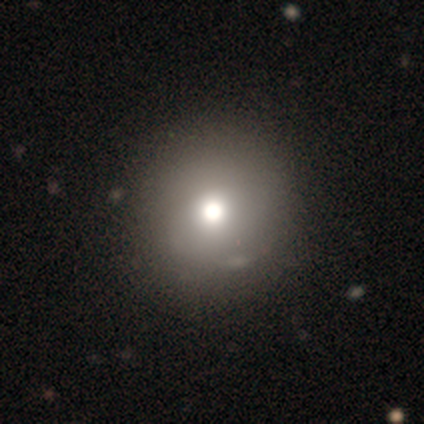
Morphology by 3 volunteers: Smooth or featured? smooth (33%, tied with featured or disk and star or artifact)
How rounded? round (100%)
Merging? none (100%)